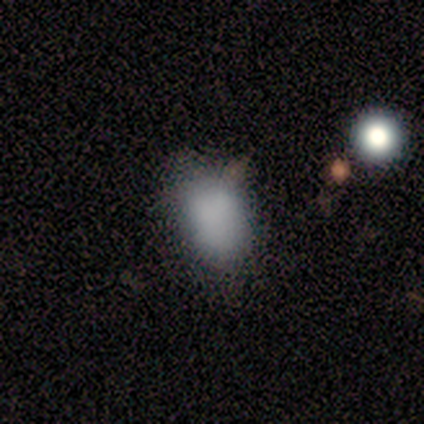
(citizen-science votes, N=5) Overall: smooth (100%). How rounded: in between (80%). Merging: none (80%).